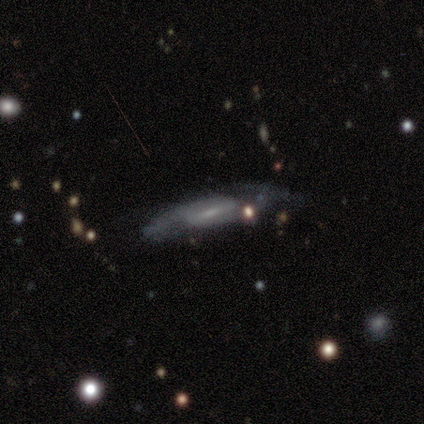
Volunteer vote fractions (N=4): Overall: featured or disk (75%). Edge-on disk: no (67%; yes 33%). Bar: weak (100%). Spiral arms: yes (100%). Spiral arm count: 2 (100%). Spiral winding: loose (100%). Bulge size: small (100%). Merging: none (67%; minor disturbance 33%).